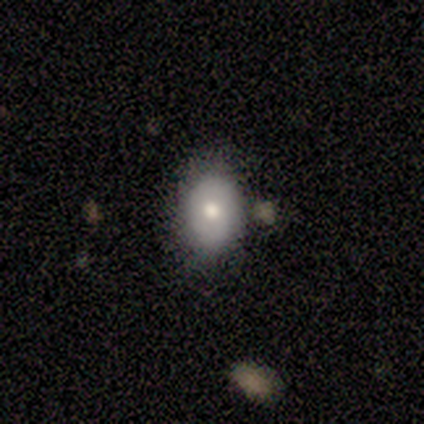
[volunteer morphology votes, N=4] This is clearly a smooth galaxy (100%). How rounded: likely in between (75%). Merging: likely none (75%).